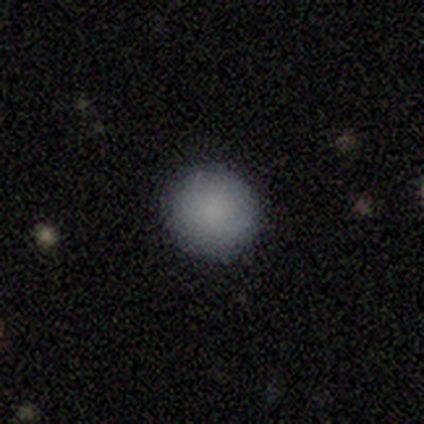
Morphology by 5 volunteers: Smooth or featured? smooth (100%)
How rounded? round (100%)
Merging? none (100%)